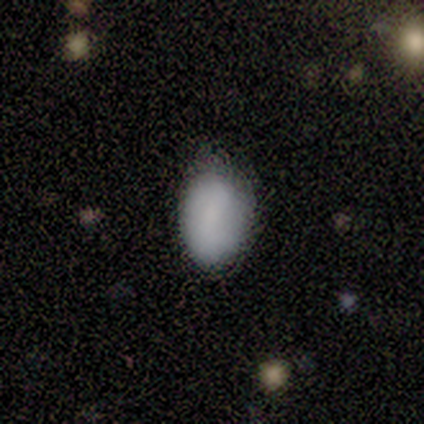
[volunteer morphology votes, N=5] Smooth or featured? smooth (80%)
How rounded? in between (100%)
Merging? none (60%)